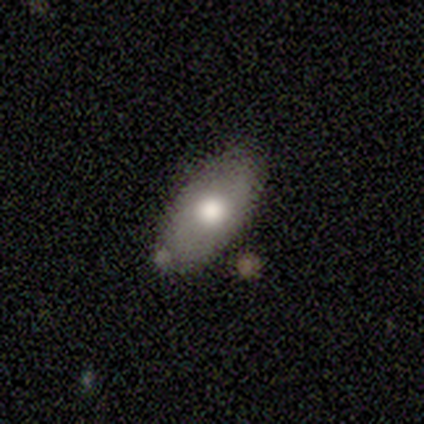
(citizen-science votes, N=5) This is likely a smooth galaxy (60%). How rounded: likely in between (67%). Merging: likely none (75%).